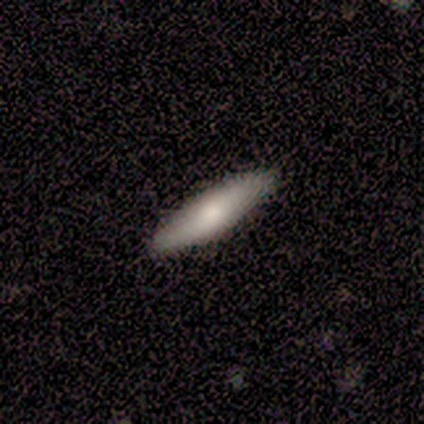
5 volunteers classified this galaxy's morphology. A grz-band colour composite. It shows a smooth galaxy with no disk features (40%, tied with featured or disk) that is cigar-shaped (100%). Merging: none (100%).